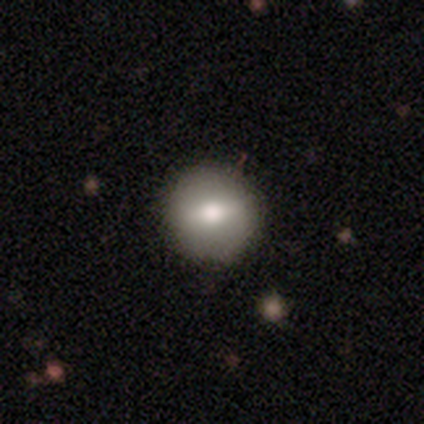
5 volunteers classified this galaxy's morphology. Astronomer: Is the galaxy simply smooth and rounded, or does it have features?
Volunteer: smooth — 80%.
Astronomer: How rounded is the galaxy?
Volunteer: round — 100%.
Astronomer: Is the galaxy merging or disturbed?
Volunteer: none — 100%.